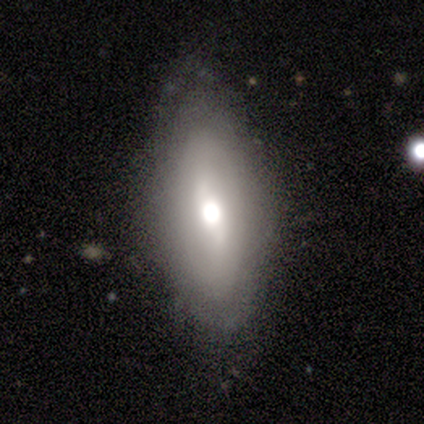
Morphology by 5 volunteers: A smooth galaxy with no disk features (100%) that is in between round and cigar-shaped (100%).

Vote fractions:
- Smooth or featured? smooth: 100% / featured or disk: 0% / star or artifact: 0%
- How rounded? in between: 100% / round: 0% / cigar-shaped: 0%
- Merging? none: 60% / minor disturbance: 20% / major disturbance: 20% / merger: 0%